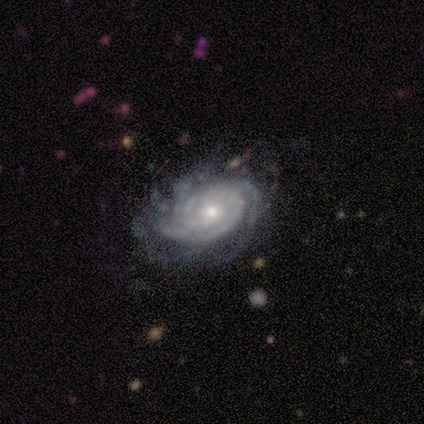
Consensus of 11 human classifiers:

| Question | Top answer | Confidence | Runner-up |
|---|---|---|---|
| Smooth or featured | featured or disk | 82% | star or artifact (18%) |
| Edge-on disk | no | 89% | yes (11%) |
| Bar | no | 50% | weak (38%) |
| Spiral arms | yes | 100% | — |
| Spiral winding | tight | 62% | medium (38%) |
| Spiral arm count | can't tell | 50% | 3 (38%) |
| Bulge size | small | 88% | moderate (12%) |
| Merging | minor disturbance | 67% | none (22%) |